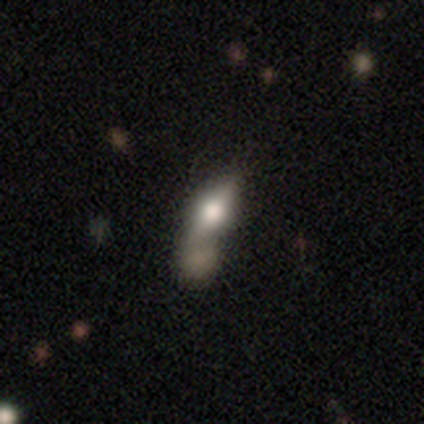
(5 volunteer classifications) Q: Smooth or featured?
A: smooth (60%); runner-up: featured or disk (40%)
Q: How rounded?
A: in between (67%); runner-up: round (33%)
Q: Merging?
A: merger (80%); runner-up: none (20%)